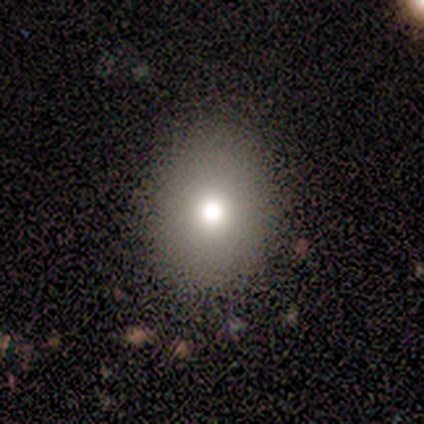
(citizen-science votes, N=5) Volunteers were most divided on "how rounded": round: 75%, in between: 25%, cigar-shaped: 0%. More confident: smooth or featured — smooth (80%); merging — none (75%).